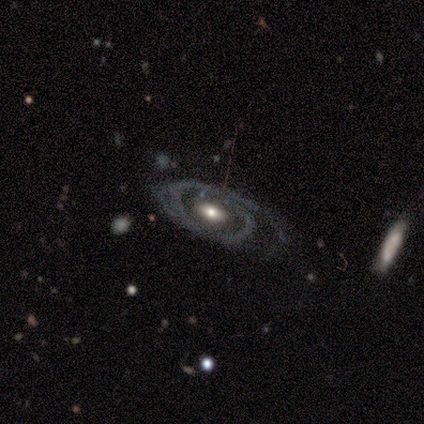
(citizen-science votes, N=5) A featured or disk galaxy (100%) with no bar (80%), no spiral arms (60%) and a moderate central bulge (100%).

Vote fractions:
- Smooth or featured? featured or disk: 100% / smooth: 0% / star or artifact: 0%
- Edge-on disk? no: 100% / yes: 0%
- Bar? no: 80% / weak: 20% / strong: 0%
- Spiral arms? no: 60% / yes: 40%
- Bulge size? moderate: 100% / dominant: 0% / large: 0% / small: 0% / none: 0%
- Merging? minor disturbance: 60% / none: 20% / major disturbance: 20% / merger: 0%